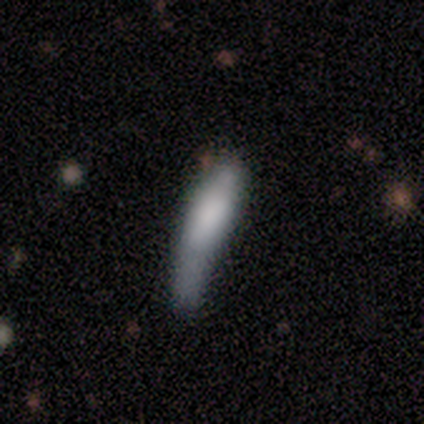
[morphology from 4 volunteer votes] Q: Smooth or featured?
A: smooth (100%)
Q: How rounded?
A: cigar-shaped (75%); runner-up: in between (25%)
Q: Merging?
A: minor disturbance (50%); tied with: major disturbance (50%)